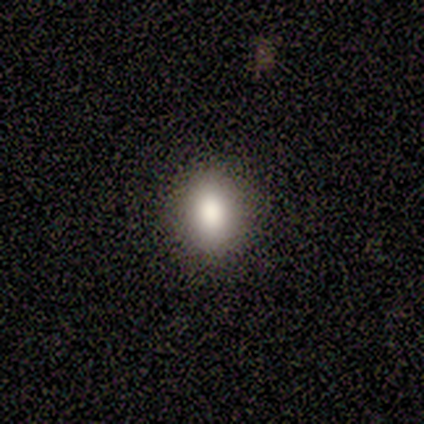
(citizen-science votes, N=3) This is clearly a smooth galaxy (100%). How rounded: likely in between (67%). Merging: likely minor disturbance (67%).